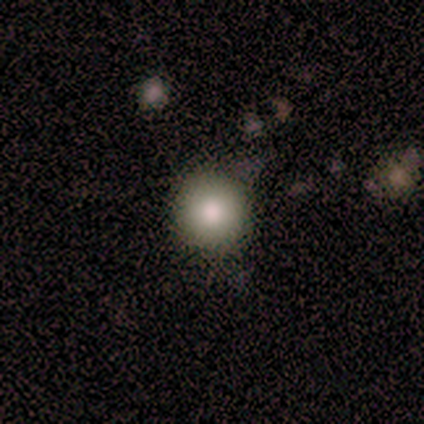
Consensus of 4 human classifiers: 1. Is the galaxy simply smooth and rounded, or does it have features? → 75% smooth, 25% star or artifact, 0% featured or disk.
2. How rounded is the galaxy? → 100% round, 0% in between, 0% cigar-shaped.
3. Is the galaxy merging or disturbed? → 100% none, 0% minor disturbance, 0% major disturbance, 0% merger.